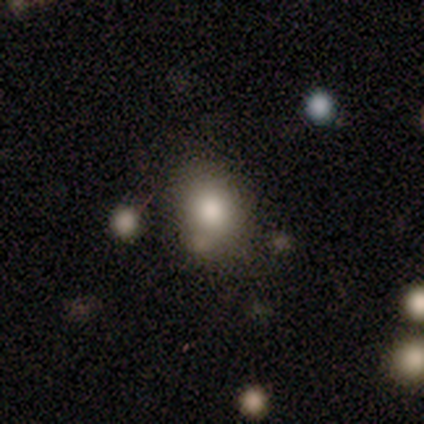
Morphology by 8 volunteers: Smooth or featured? 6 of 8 (75%) said smooth. How rounded? 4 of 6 (67%) said in between. Merging? 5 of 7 (71%) said none.